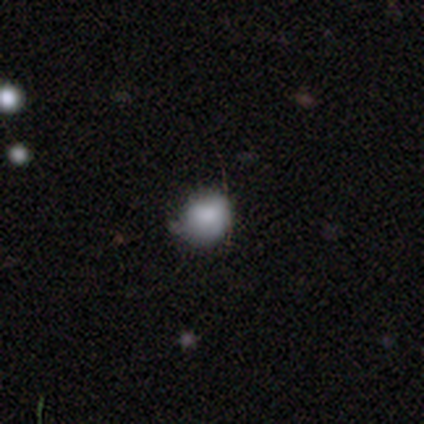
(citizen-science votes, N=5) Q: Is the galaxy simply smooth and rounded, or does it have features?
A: smooth — 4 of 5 (80%).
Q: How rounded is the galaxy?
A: in between — 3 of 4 (75%).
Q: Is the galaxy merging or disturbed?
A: none — 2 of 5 (40%, tied with minor disturbance).